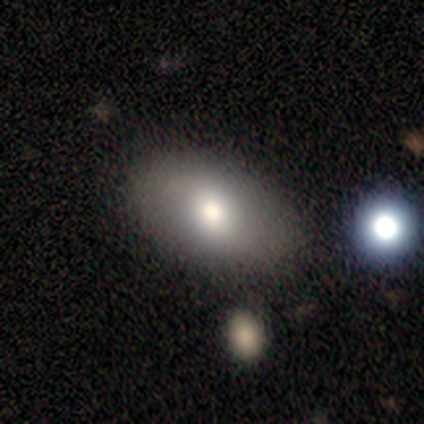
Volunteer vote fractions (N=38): Volunteers were most divided on "merging": none: 74%, minor disturbance: 23%, merger: 3%, major disturbance: 0%. More confident: how rounded — in between (93%); smooth or featured — smooth (74%).